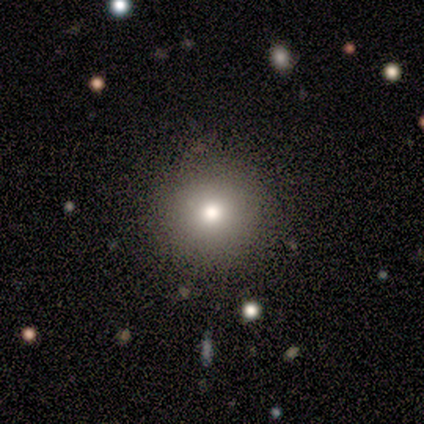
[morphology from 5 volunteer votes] Overall: smooth (60%; featured or disk 20%). How rounded: round (100%). Merging: none (100%).